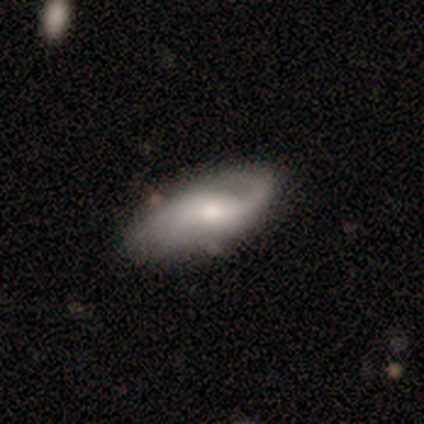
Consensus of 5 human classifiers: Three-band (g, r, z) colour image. It shows a featured or disk galaxy (60%) with no bar (67%), 2 (67%) medium (67%) spiral arms (100%) and a moderate central bulge (33%, tied with small and none). Merging: none (60%).